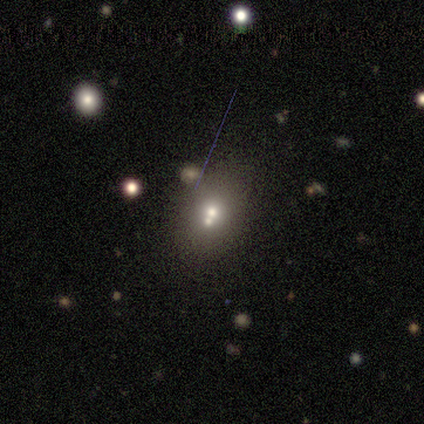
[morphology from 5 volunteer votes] Smooth or featured: smooth — 80% (featured or disk — 20%)
How rounded: round — 50% (tied with in between — 50%)
Merging: merger — 60% (none — 20%)